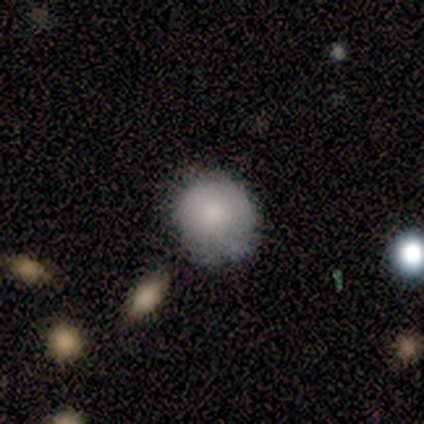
Smooth or featured: smooth — 100%
How rounded: round — 100%
Merging: none — 80% (minor disturbance — 20%)